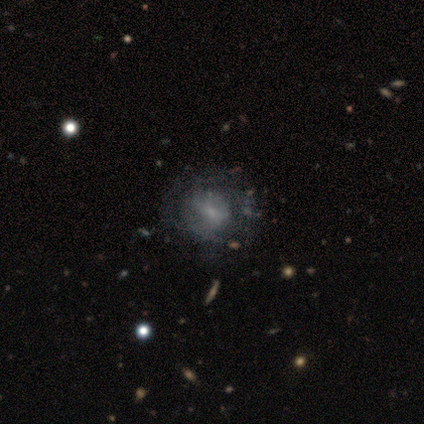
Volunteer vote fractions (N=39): Morphology: type=featured or disk (67%); edge-on=no (100%); bar=weak (50%); spiral arms=yes (54%); winding=medium (57%); arm count=can't tell (64%); bulge=small (73%); merging=none (40%).